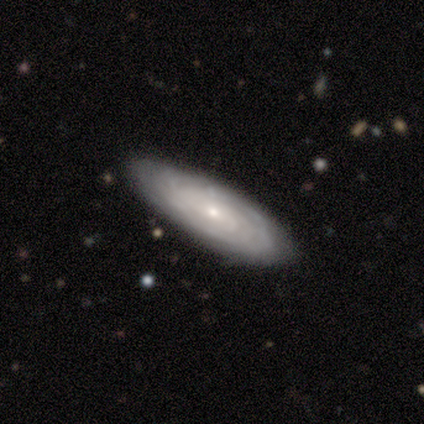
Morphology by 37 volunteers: Smooth or featured? 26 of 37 (70%) said featured or disk. Edge-on disk? 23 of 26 (88%) said no. Bar? 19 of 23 (83%) said no. Spiral arms? 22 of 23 (96%) said yes. Spiral winding? 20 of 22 (91%) said tight. Spiral arm count? 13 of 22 (59%) said can't tell. Bulge size? 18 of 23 (78%) said small. Merging? 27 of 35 (77%) said none.